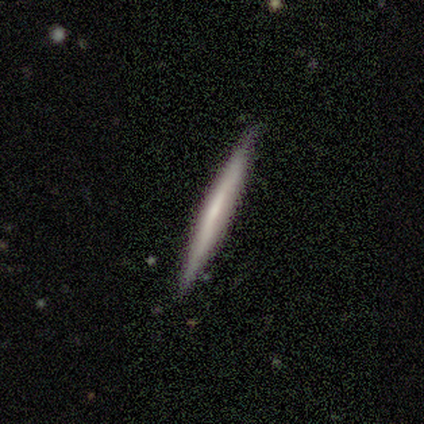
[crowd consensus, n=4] This appears to be a smooth galaxy with no disk features (50%, tied with featured or disk) that is cigar-shaped (100%). Merging: none (100%).